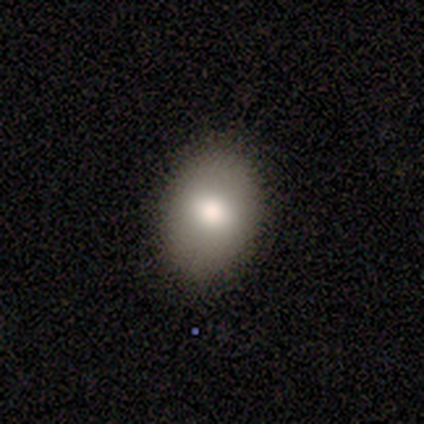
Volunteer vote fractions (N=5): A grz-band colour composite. It shows a smooth galaxy with no disk features (80%) that is round (50%, tied with in between). Merging: none (100%).